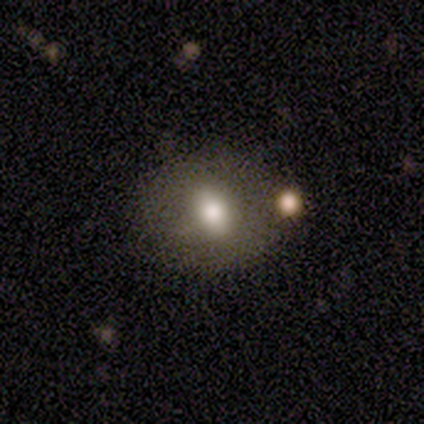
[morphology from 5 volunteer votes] smooth-or-featured: smooth: 80% | featured or disk: 20% | star or artifact: 0%
  how-rounded: in between: 50% | round: 25% | cigar-shaped: 25%
  merging: none: 60% | minor disturbance: 20% | merger: 20% | major disturbance: 0%